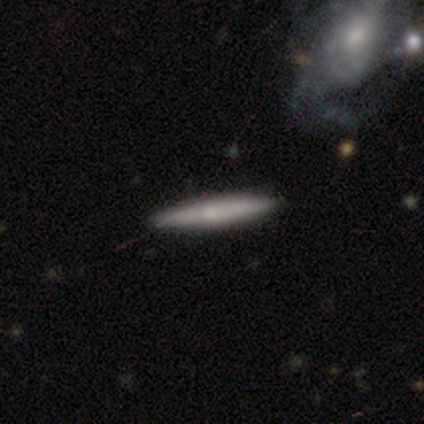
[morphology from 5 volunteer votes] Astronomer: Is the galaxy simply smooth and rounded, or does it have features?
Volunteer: smooth — 40%, tied with featured or disk at 40%.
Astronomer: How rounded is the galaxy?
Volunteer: cigar-shaped — 100%.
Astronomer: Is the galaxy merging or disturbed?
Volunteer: none — 50%.